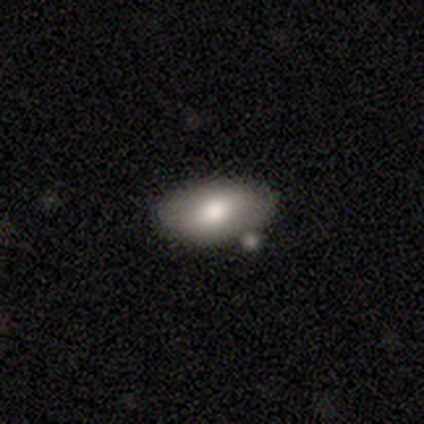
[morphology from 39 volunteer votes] Smooth or featured?
  - smooth: 77% *
  - featured or disk: 21%
  - star or artifact: 3%
How rounded?
  - in between: 97% *
  - round: 3%
  - cigar-shaped: 0%
Merging?
  - none: 63% *
  - merger: 21%
  - minor disturbance: 8%
  - major disturbance: 3%